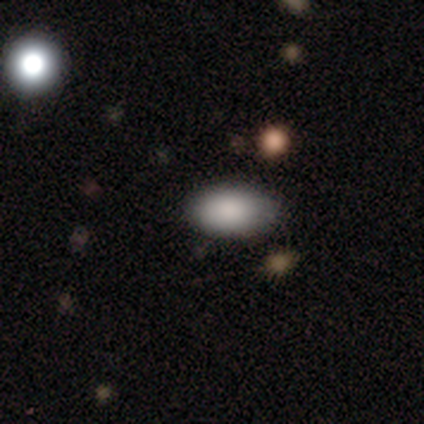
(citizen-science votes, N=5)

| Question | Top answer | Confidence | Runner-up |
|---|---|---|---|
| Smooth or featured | smooth | 100% | — |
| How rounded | in between | 100% | — |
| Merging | none | 100% | — |